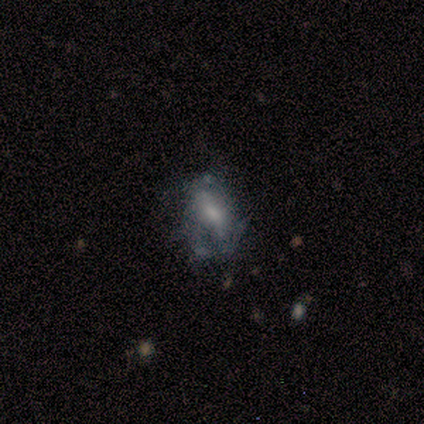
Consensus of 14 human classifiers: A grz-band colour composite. It shows a featured or disk galaxy (71%) with no bar (50%), 2 (67%) tight (50%) spiral arms (60%) and a small central bulge (40%). Merging: none (54%).